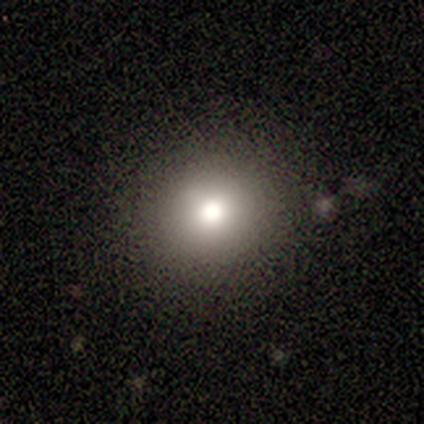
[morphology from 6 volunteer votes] Q: Smooth or featured?
A: smooth (50%); runner-up: featured or disk (33%)
Q: How rounded?
A: round (100%)
Q: Merging?
A: none (80%); runner-up: minor disturbance (20%)